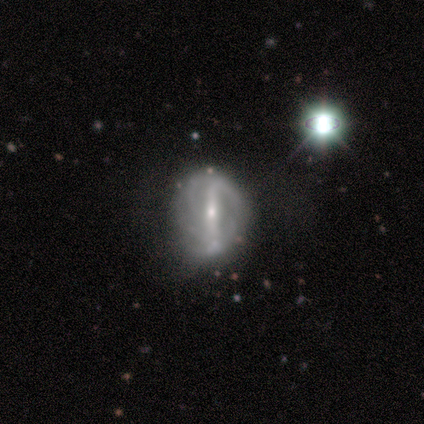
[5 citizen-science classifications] smooth-or-featured: featured or disk: 60% | smooth: 40% | star or artifact: 0%
  disk-edge-on: no: 100% | yes: 0%
    bar: strong: 67% | no: 33% | weak: 0%
    has-spiral-arms: yes: 100% | no: 0%
      spiral-winding: tight: 67% | medium: 33% | loose: 0%
      spiral-arm-count: can't tell: 67% | 2: 33% | 1: 0% | 3: 0% | 4: 0% | more than 4: 0%
    bulge-size: small: 100% | dominant: 0% | large: 0% | moderate: 0% | none: 0%
  merging: none: 40% | minor disturbance: 20% | major disturbance: 20% | merger: 20%